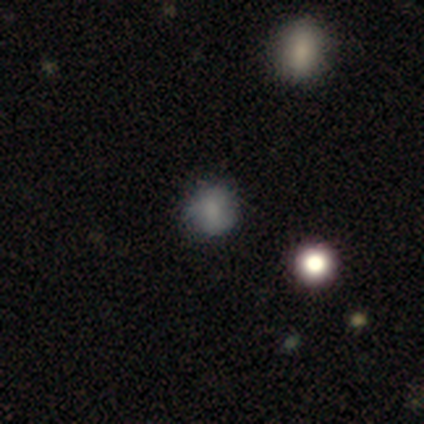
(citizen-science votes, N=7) Smooth or featured: smooth — 57% (featured or disk — 43%)
How rounded: round — 100%
Merging: none — 43% (tied with minor disturbance — 43%)